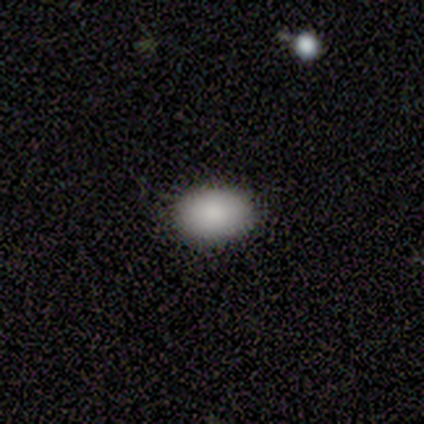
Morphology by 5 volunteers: smooth-or-featured: smooth: 100% | featured or disk: 0% | star or artifact: 0%
  how-rounded: in between: 80% | round: 20% | cigar-shaped: 0%
  merging: none: 100% | minor disturbance: 0% | major disturbance: 0% | merger: 0%